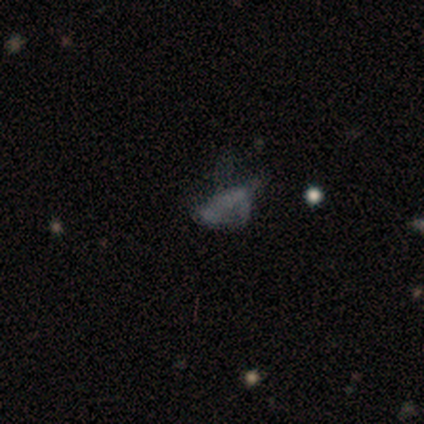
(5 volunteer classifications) Smooth or featured? smooth (60%)
How rounded? in between (67%)
Merging? major disturbance (60%)